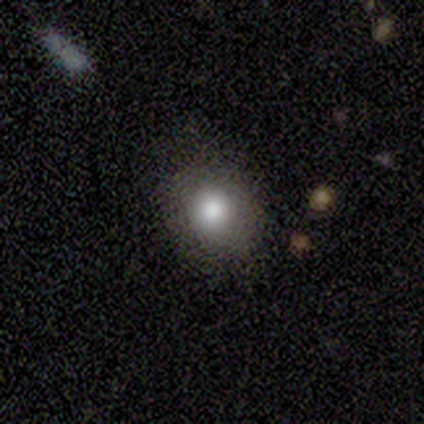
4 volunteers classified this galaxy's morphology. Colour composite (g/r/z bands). It shows a smooth galaxy with no disk features (50%, tied with featured or disk) that is round (50%, tied with in between). Merging: none (100%).